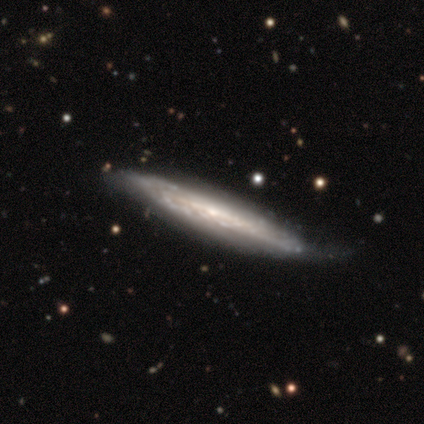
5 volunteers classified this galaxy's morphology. Q: Smooth or featured?
A: featured or disk (60%); runner-up: smooth (40%)
Q: Edge-on disk?
A: yes (100%)
Q: Edge-on bulge?
A: none (100%)
Q: Merging?
A: minor disturbance (80%); runner-up: none (20%)